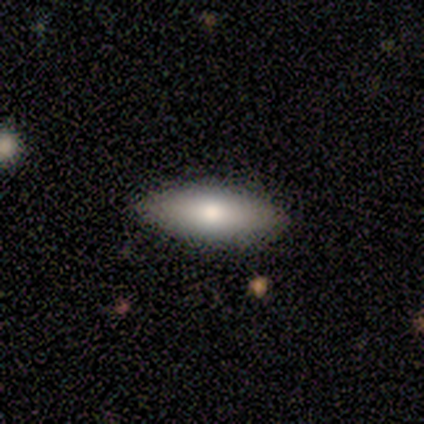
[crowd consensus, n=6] This is clearly a smooth galaxy (100%). How rounded: likely in between (67%). Merging: clearly none (100%).